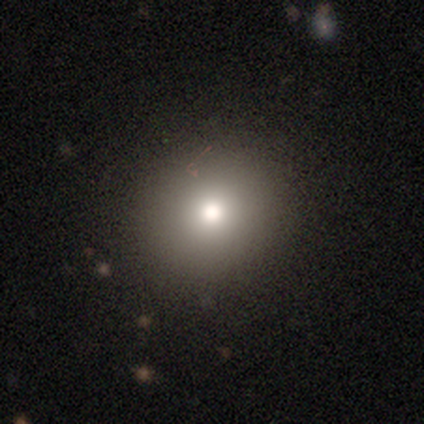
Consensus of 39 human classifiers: smooth 67%, featured or disk 21%, star or artifact 13%. Down the decision tree: how rounded — round (100%); merging — none (88%).